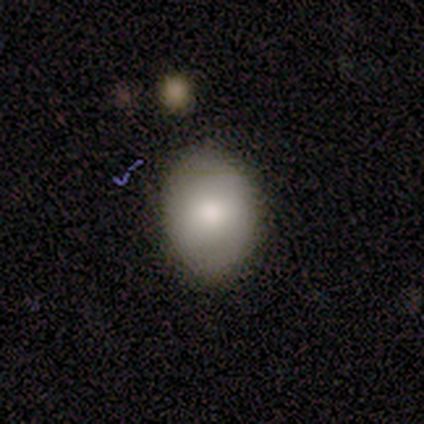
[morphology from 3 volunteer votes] smooth_or_featured: smooth (p=0.67) [alt: featured or disk p=0.33]
how_rounded: in between (p=1.00)
merging: none (p=1.00)